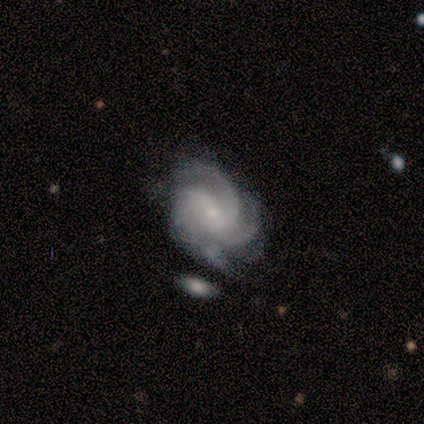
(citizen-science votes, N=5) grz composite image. It shows a featured or disk galaxy (100%) with a weak bar (60%), 3 (80%) medium (60%) spiral arms (100%) and a small central bulge (80%). Merging: none (80%).